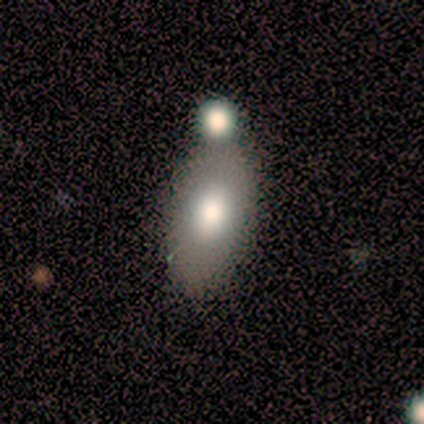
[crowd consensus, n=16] This is clearly a smooth galaxy (81%). How rounded: likely in between (77%). Merging: possibly none (50%).